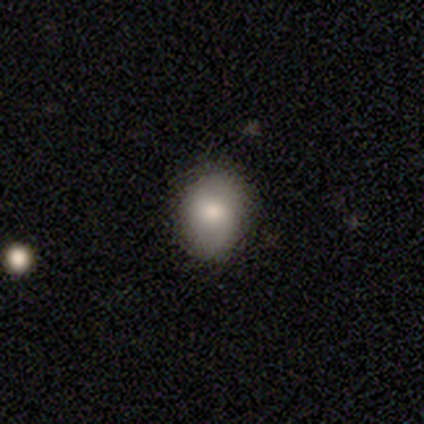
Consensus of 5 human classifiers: Morphology: type=smooth (80%); roundness=round (75%); merging=none (80%).